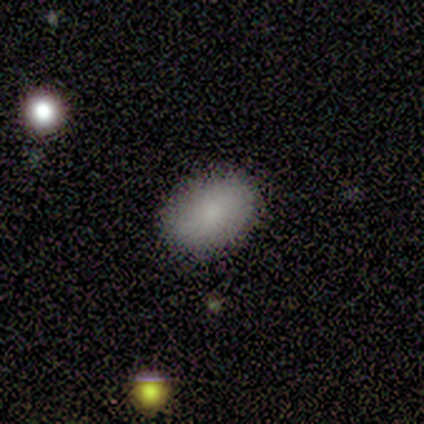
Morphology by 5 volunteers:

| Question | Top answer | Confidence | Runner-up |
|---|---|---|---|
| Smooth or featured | featured or disk | 60% | smooth (20%) |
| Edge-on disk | no | 100% | — |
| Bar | no | 100% | — |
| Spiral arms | no | 100% | — |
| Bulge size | small | 67% | none (33%) |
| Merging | none | 100% | — |